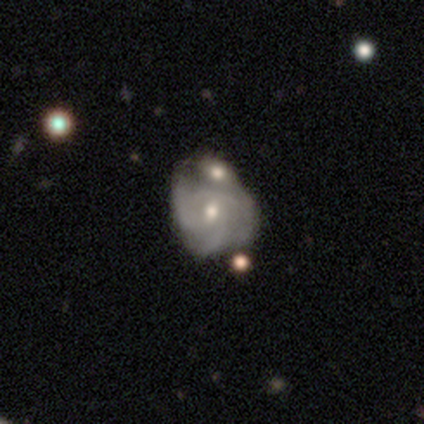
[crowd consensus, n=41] Morphology: type=featured or disk (71%); edge-on=no (97%); bar=weak (54%); spiral arms=yes (79%); winding=tight (50%); arm count=3 (55%); bulge=moderate (46%, tied with small); merging=merger (43%).